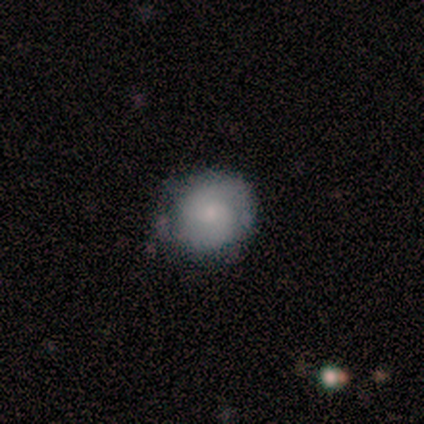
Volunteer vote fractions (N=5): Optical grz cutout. It shows a featured or disk galaxy (80%) with no bar (75%), 2 (67%) tight (33%, tied with medium and loose) spiral arms (75%) and a moderate central bulge (50%, tied with small). Merging: none (60%).